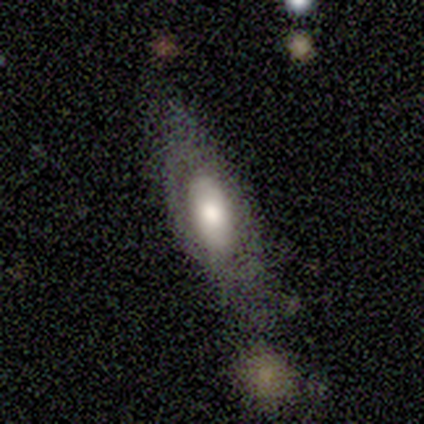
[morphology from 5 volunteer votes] Volunteers were most divided on "merging": none: 60%, minor disturbance: 20%, merger: 20%, major disturbance: 0%. More confident: edge-on bulge — rounded (100%); smooth or featured — featured or disk (80%); edge-on disk — yes (75%).